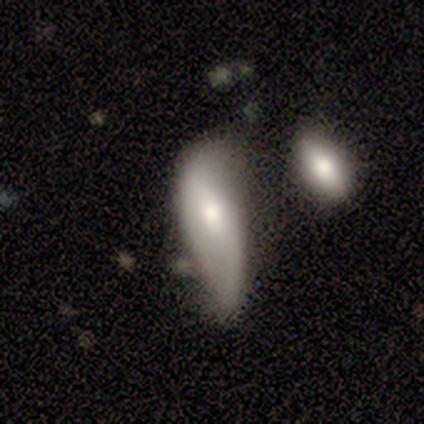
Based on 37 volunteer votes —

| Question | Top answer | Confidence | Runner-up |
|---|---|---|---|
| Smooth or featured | featured or disk | 51% | smooth (43%) |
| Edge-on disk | no | 100% | — |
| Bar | no | 63% | weak (21%) |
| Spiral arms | yes | 74% | no (26%) |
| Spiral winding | loose | 100% | — |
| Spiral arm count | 2 | 86% | can't tell (14%) |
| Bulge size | moderate | 68% | large (21%) |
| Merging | none | 29% | minor disturbance (26%) |